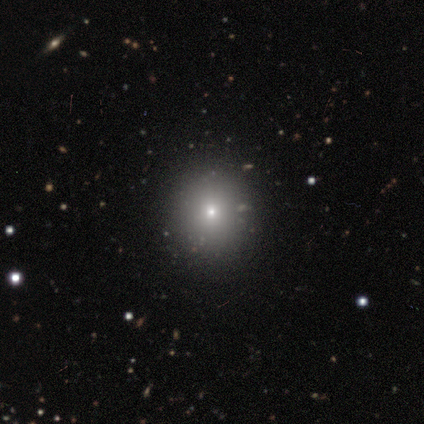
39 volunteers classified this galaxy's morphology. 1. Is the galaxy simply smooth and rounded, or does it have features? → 69% smooth, 18% star or artifact, 13% featured or disk.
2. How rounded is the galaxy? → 78% round, 22% in between, 0% cigar-shaped.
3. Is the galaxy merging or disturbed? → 88% none, 6% minor disturbance, 6% merger, 0% major disturbance.